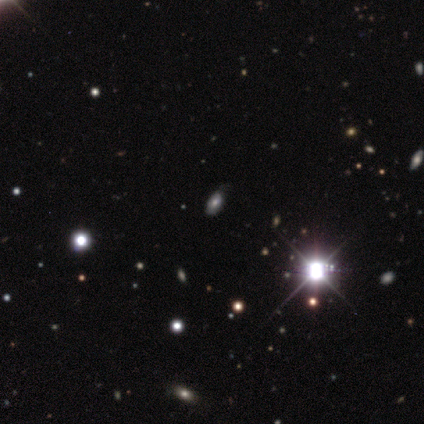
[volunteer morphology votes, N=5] Smooth or featured? 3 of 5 (60%) said star or artifact.